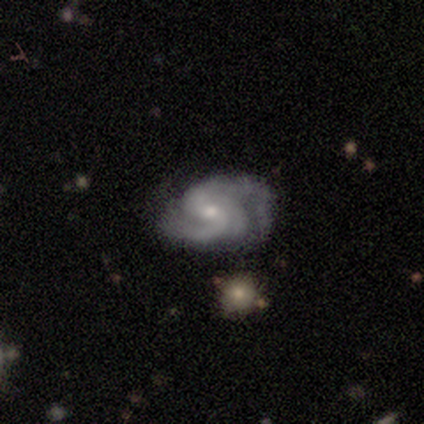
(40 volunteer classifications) featured or disk 95%, smooth 5%, star or artifact 0%. Down the decision tree: edge-on disk — no (100%); bar — weak (47%, tied with no); spiral arms — yes (100%); spiral arm count — 2 (53%); spiral winding — medium (55%); bulge size — small (50%); merging — none (30%).